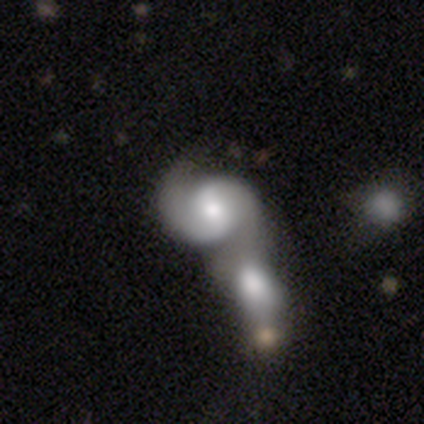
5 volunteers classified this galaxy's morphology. Volunteers were most divided on "bar": no: 60%, weak: 40%, strong: 0%. More confident: smooth or featured — featured or disk (100%); edge-on disk — no (100%); spiral arms — yes (100%); merging — merger (100%); spiral arm count — 2 (80%); bulge size — moderate (80%); spiral winding — loose (60%).